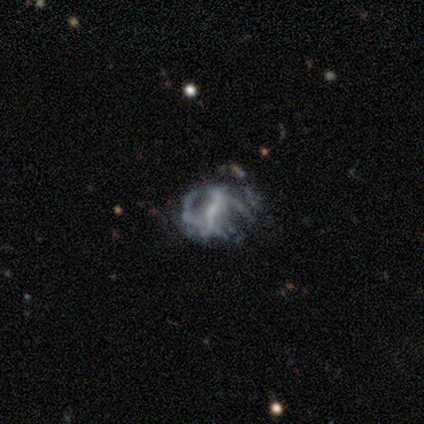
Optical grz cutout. It shows a featured or disk galaxy (60%) with a weak bar (67%), medium (100%) spiral arms (67%) and a moderate central bulge (33%, tied with small and none). Merging: none (67%).